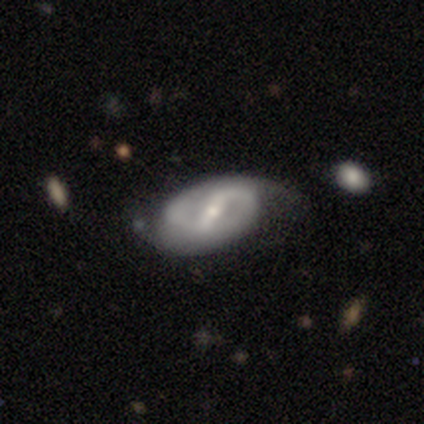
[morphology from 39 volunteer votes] A featured or disk galaxy (90%) with a strong bar (59%), 2 (100%) medium (45%) spiral arms (91%) and a small central bulge (65%).

Vote fractions:
- Smooth or featured? featured or disk: 90% / smooth: 10% / star or artifact: 0%
- Edge-on disk? no: 97% / yes: 3%
- Bar? strong: 59% / weak: 41% / no: 0%
- Spiral arms? yes: 91% / no: 9%
- Spiral winding? medium: 45% / tight: 29% / loose: 26%
- Spiral arm count? 2: 100% / 1: 0% / 3: 0% / 4: 0% / more than 4: 0% / can't tell: 0%
- Bulge size? small: 65% / moderate: 32% / none: 3% / dominant: 0% / large: 0%
- Merging? none: 69% / minor disturbance: 21% / major disturbance: 10% / merger: 0%